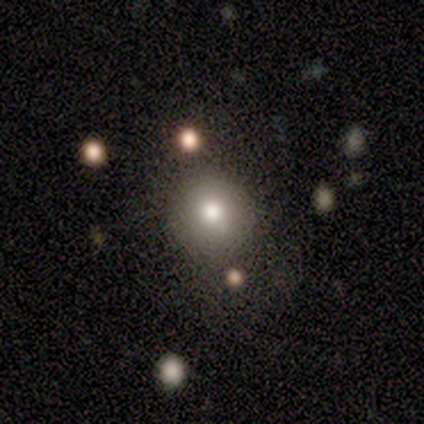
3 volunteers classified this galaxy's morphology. smooth-or-featured: smooth: 100% | featured or disk: 0% | star or artifact: 0%
  how-rounded: round: 67% | in between: 33% | cigar-shaped: 0%
  merging: none: 100% | minor disturbance: 0% | major disturbance: 0% | merger: 0%